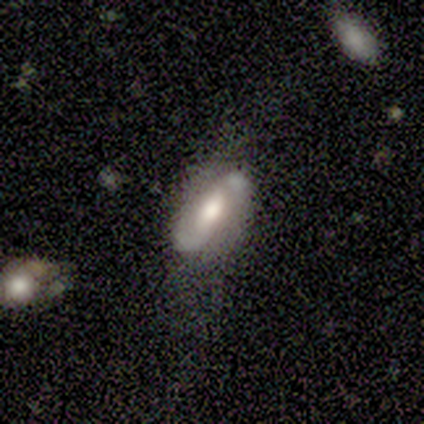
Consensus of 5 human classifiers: Smooth or featured: smooth — 40% (tied with featured or disk — 40%)
How rounded: in between — 100%
Merging: minor disturbance — 75% (none — 25%)